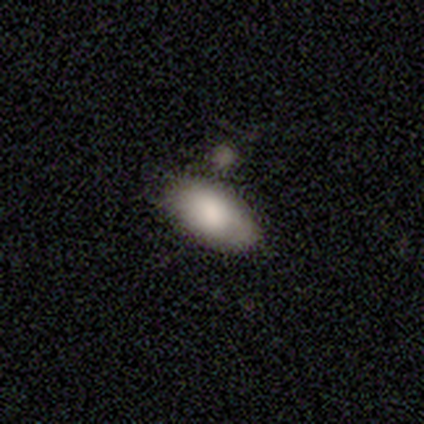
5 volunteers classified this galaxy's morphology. smooth 80%, star or artifact 20%, featured or disk 0%. Down the decision tree: how rounded — in between (100%); merging — none (50%).